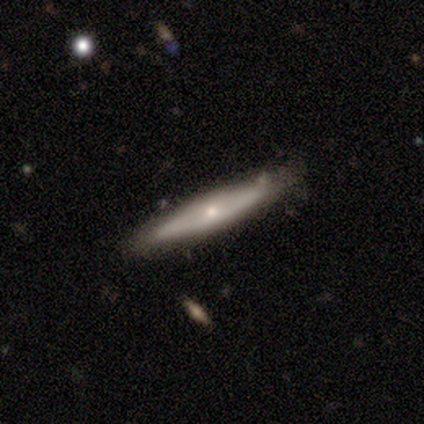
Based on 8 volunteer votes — A featured or disk galaxy (62%) viewed edge-on (60%) with no central bulge (67%).

Vote fractions:
- Smooth or featured? featured or disk: 62% / smooth: 38% / star or artifact: 0%
- Edge-on disk? yes: 60% / no: 40%
- Edge-on bulge? none: 67% / rounded: 33% / boxy: 0%
- Merging? none: 88% / minor disturbance: 12% / major disturbance: 0% / merger: 0%